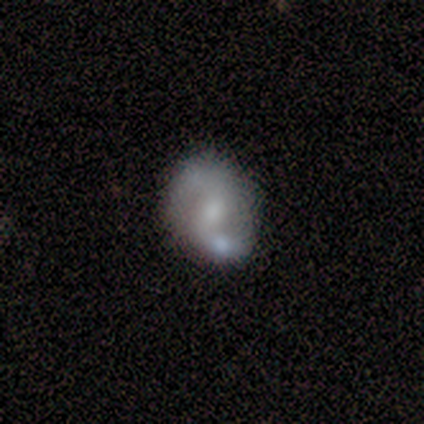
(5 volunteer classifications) This appears to be a featured or disk galaxy (80%) with a weak bar (75%), 2 (100%) medium (50%, tied with loose) spiral arms (100%) and a moderate central bulge (50%). Merging: merger (60%).